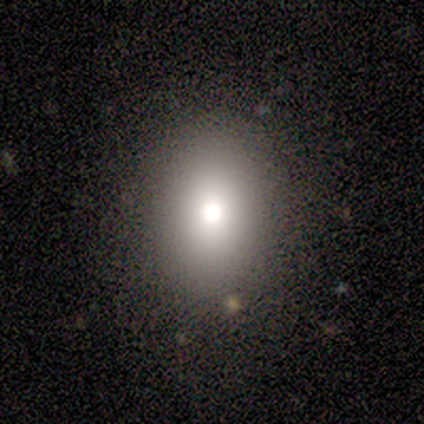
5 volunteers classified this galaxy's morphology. smooth-or-featured: smooth: 80% | featured or disk: 20% | star or artifact: 0%
  how-rounded: in between: 100% | round: 0% | cigar-shaped: 0%
  merging: none: 80% | minor disturbance: 20% | major disturbance: 0% | merger: 0%